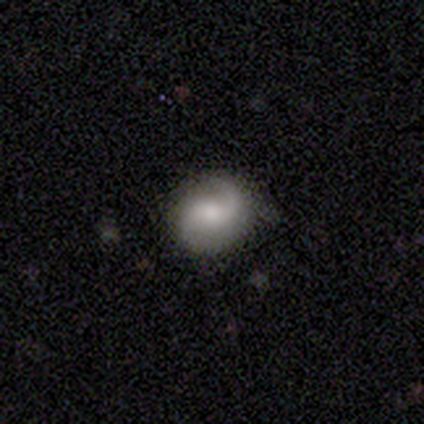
Morphology: type=featured or disk (60%); edge-on=no (100%); bar=no (100%); spiral arms=yes (100%); winding=medium (67%); arm count=2 (100%); bulge=large (33%, tied with moderate and small); merging=none (80%).